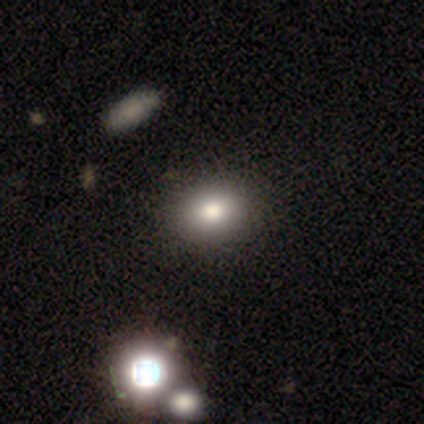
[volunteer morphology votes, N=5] Smooth or featured? smooth (100%)
How rounded? round (80%)
Merging? none (100%)